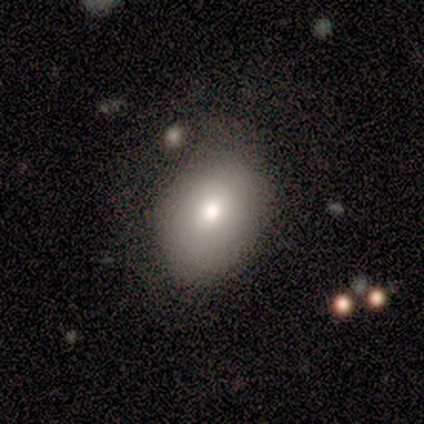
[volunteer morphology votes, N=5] Smooth or featured?
  - smooth: 100% *
  - featured or disk: 0%
  - star or artifact: 0%
How rounded?
  - in between: 60% *
  - round: 40%
  - cigar-shaped: 0%
Merging?
  - none: 40% * (tied)
  - minor disturbance: 40% * (tied)
  - major disturbance: 20%
  - merger: 0%